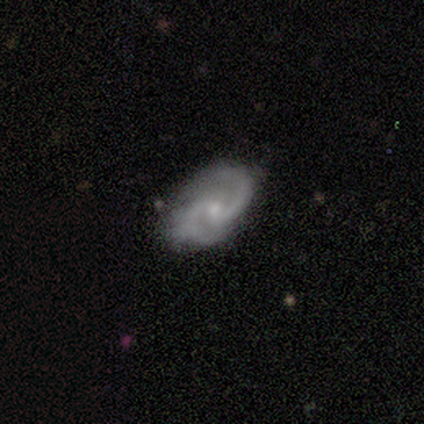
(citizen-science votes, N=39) featured or disk 87%, smooth 8%, star or artifact 5%. Down the decision tree: edge-on disk — no (100%); bar — no (59%); spiral arms — yes (100%); spiral arm count — 2 (100%); spiral winding — medium (56%); bulge size — small (68%); merging — none (84%).